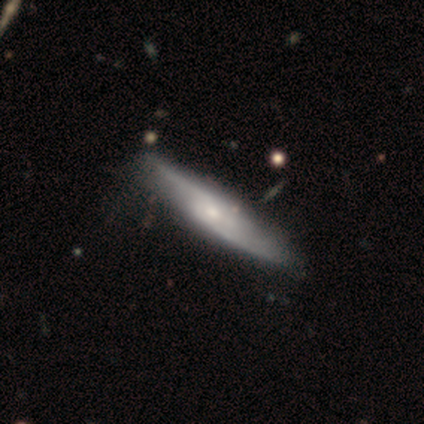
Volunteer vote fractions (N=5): smooth-or-featured: featured or disk: 60% | smooth: 20% | star or artifact: 20%
  disk-edge-on: no: 67% | yes: 33%
    bar: no: 100% | strong: 0% | weak: 0%
    has-spiral-arms: yes: 50% (tied) | no: 50% (tied)
      spiral-winding: loose: 100% | tight: 0% | medium: 0%
      spiral-arm-count: 2: 100% | 1: 0% | 3: 0% | 4: 0% | more than 4: 0% | can't tell: 0%
    bulge-size: small: 100% | dominant: 0% | large: 0% | moderate: 0% | none: 0%
  merging: none: 75% | minor disturbance: 25% | major disturbance: 0% | merger: 0%